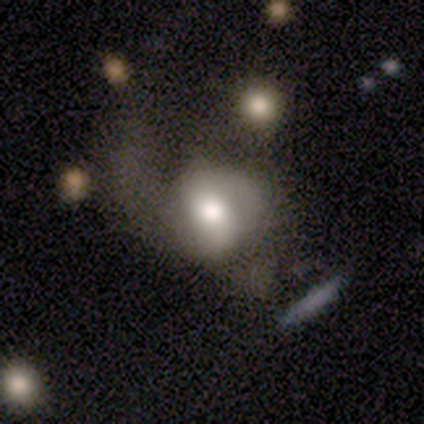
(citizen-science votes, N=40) smooth_or_featured: featured or disk (p=0.57) [alt: smooth p=0.42]
disk_edge_on: no (p=0.96) [alt: yes p=0.04]
bar: no (p=0.55) [alt: weak p=0.36]
has_spiral_arms: yes (p=0.64) [alt: no p=0.36]
spiral_winding: medium (p=0.64) [alt: loose p=0.29]
spiral_arm_count: 2 (p=0.64) [alt: 1 p=0.21]
bulge_size: moderate (p=0.45) [alt: large p=0.41]
merging: major disturbance (p=0.35) [alt: minor disturbance p=0.17]